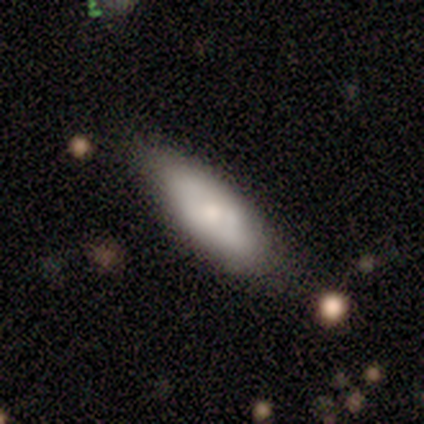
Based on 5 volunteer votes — Smooth or featured: smooth — 100%
How rounded: in between — 60% (cigar-shaped — 40%)
Merging: none — 80% (minor disturbance — 20%)